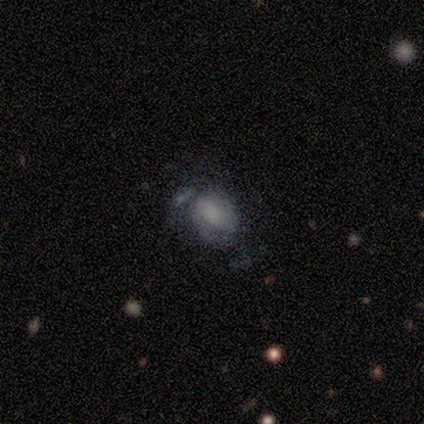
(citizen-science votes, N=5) Smooth or featured? smooth (40%, tied with featured or disk)
How rounded? round (50%, tied with in between)
Merging? none (50%, tied with minor disturbance)